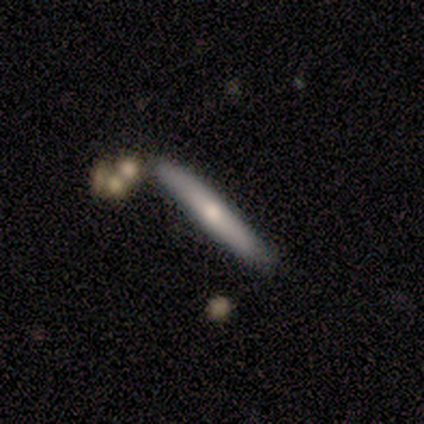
Smooth or featured: smooth — 50% (featured or disk — 25%)
How rounded: cigar-shaped — 100%
Merging: none — 67% (minor disturbance — 33%)